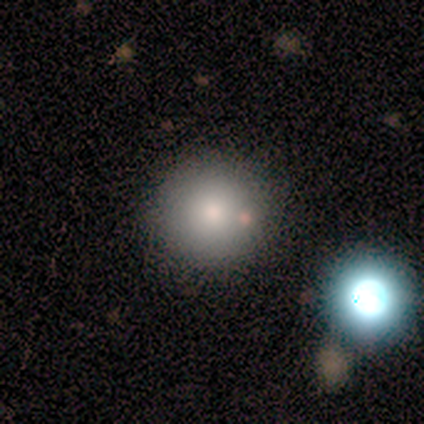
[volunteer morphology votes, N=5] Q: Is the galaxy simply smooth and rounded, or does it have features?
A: smooth — 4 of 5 (80%).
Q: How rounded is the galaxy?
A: round — 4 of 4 (100%).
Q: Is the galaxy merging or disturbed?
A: none — 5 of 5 (100%).